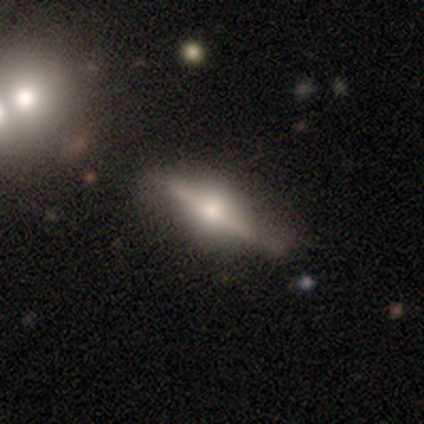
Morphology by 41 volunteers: Overall: featured or disk (73%). Edge-on disk: yes (93%). Edge-on bulge: rounded (96%). Merging: none (72%).